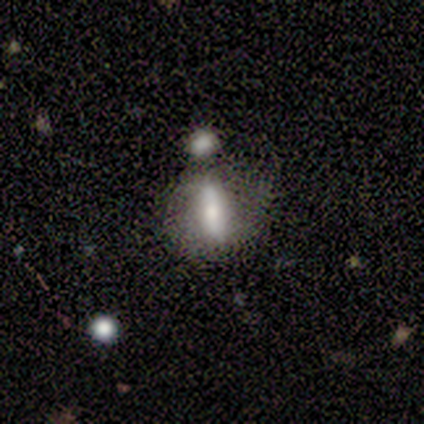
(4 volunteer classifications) A smooth galaxy with no disk features (50%, tied with featured or disk) that is in between round and cigar-shaped (50%, tied with cigar-shaped).

Vote fractions:
- Smooth or featured? smooth: 50% (tied) / featured or disk: 50% (tied) / star or artifact: 0%
- How rounded? in between: 50% (tied) / cigar-shaped: 50% (tied) / round: 0%
- Merging? none: 25% (tied) / minor disturbance: 25% (tied) / major disturbance: 25% (tied) / merger: 25% (tied)